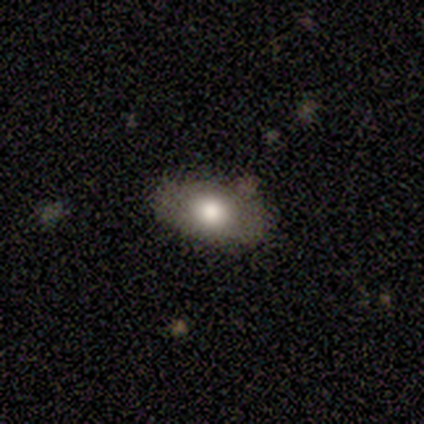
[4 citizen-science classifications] Smooth or featured? smooth (75%)
How rounded? in between (100%)
Merging? none (75%)